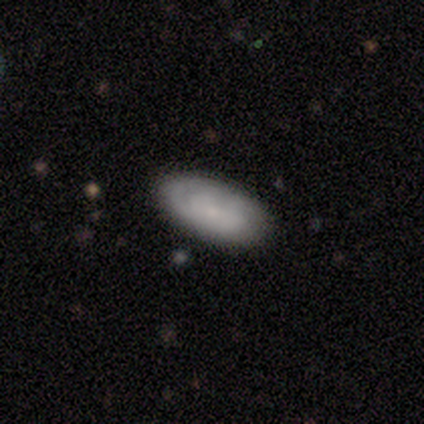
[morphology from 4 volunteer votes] Volunteers were most divided on "merging" (2-way tie): none: 50%, minor disturbance: 50%, major disturbance: 0%, merger: 0%. More confident: edge-on disk — no (100%); bulge size — small (100%); smooth or featured — featured or disk (75%); bar — no (67%); spiral arms — no (67%).